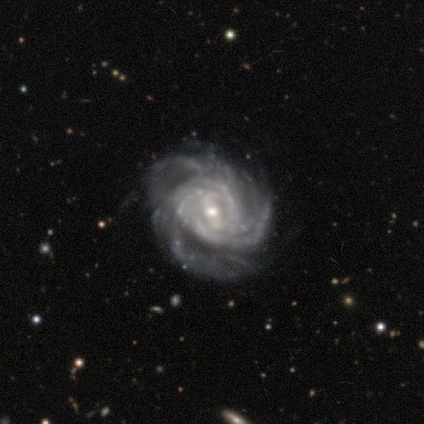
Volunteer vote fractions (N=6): Smooth or featured?
  - featured or disk: 100% *
  - smooth: 0%
  - star or artifact: 0%
Edge-on disk?
  - no: 100% *
  - yes: 0%
Bar?
  - weak: 50% *
  - strong: 33%
  - no: 17%
Spiral arms?
  - yes: 83% *
  - no: 17%
Spiral winding?
  - tight: 100% *
  - medium: 0%
  - loose: 0%
Spiral arm count?
  - more than 4: 40% * (tied)
  - can't tell: 40% * (tied)
  - 3: 20%
  - 1: 0%
  - 2: 0%
  - 4: 0%
Bulge size?
  - moderate: 50% *
  - small: 33%
  - large: 17%
  - dominant: 0%
  - none: 0%
Merging?
  - none: 50% *
  - minor disturbance: 33%
  - major disturbance: 17%
  - merger: 0%